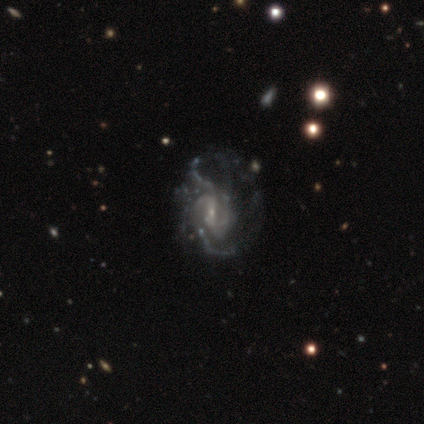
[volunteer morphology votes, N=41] Smooth or featured: featured or disk — 88% (smooth — 10%)
Edge-on disk: no — 100%
Bar: weak — 44% (tied with no — 44%)
Spiral arms: yes — 92% (no — 8%)
Spiral winding: tight — 39% (medium — 33%)
Spiral arm count: 2 — 39% (can't tell — 27%)
Bulge size: small — 81% (none — 11%)
Merging: none — 42% (major disturbance — 38%)